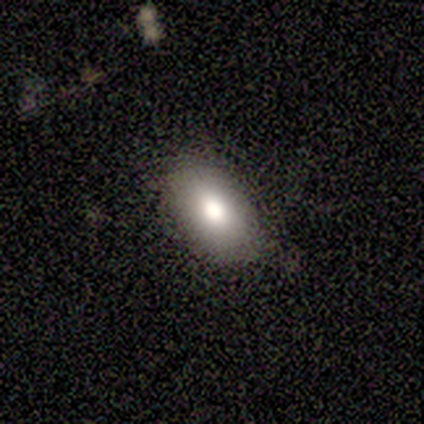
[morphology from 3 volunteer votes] This appears to be a star or artifact, not a galaxy (67%).